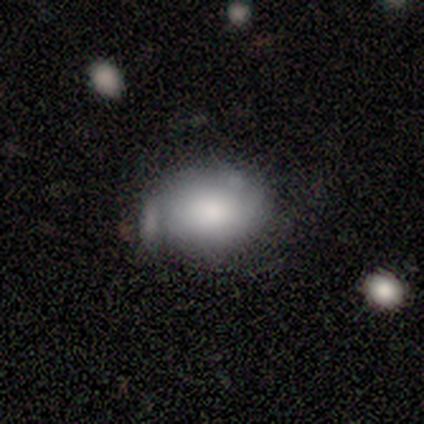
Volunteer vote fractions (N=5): Smooth or featured?
  - smooth: 100% *
  - featured or disk: 0%
  - star or artifact: 0%
How rounded?
  - in between: 100% *
  - round: 0%
  - cigar-shaped: 0%
Merging?
  - minor disturbance: 60% *
  - major disturbance: 20%
  - merger: 20%
  - none: 0%